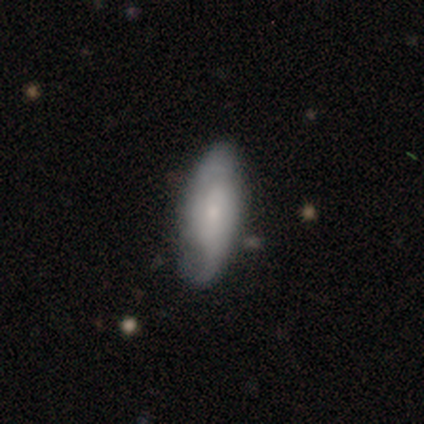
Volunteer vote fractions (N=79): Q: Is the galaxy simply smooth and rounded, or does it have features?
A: smooth — 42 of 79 (53%).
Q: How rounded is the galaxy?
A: in between — 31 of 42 (74%).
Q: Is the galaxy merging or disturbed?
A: none — 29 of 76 (38%).